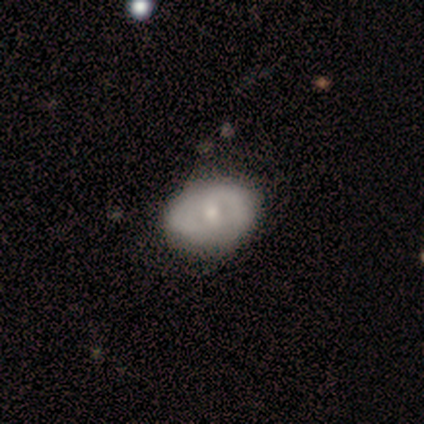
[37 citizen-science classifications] Smooth or featured?
  - featured or disk: 59% *
  - smooth: 35%
  - star or artifact: 5%
Edge-on disk?
  - no: 100% *
  - yes: 0%
Bar?
  - no: 68% *
  - weak: 27%
  - strong: 5%
Spiral arms?
  - no: 68% *
  - yes: 32%
Bulge size?
  - moderate: 59% *
  - small: 41%
  - dominant: 0%
  - large: 0%
  - none: 0%
Merging?
  - none: 77% *
  - minor disturbance: 14%
  - major disturbance: 9%
  - merger: 0%